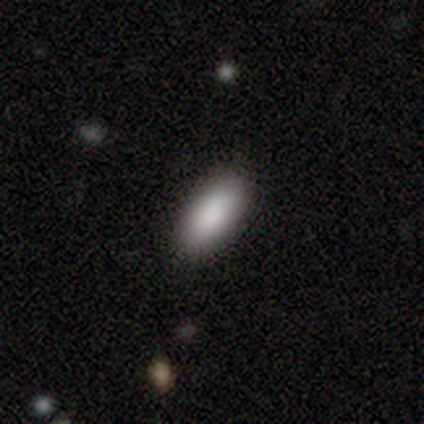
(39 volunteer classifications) smooth 90%, featured or disk 5%, star or artifact 5%. Down the decision tree: how rounded — in between (83%); merging — none (86%).